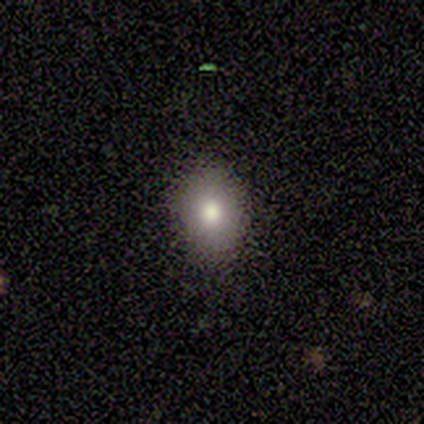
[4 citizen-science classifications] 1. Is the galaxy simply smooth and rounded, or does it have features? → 100% smooth, 0% featured or disk, 0% star or artifact.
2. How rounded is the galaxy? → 75% round, 25% in between, 0% cigar-shaped.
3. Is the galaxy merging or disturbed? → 100% none, 0% minor disturbance, 0% major disturbance, 0% merger.